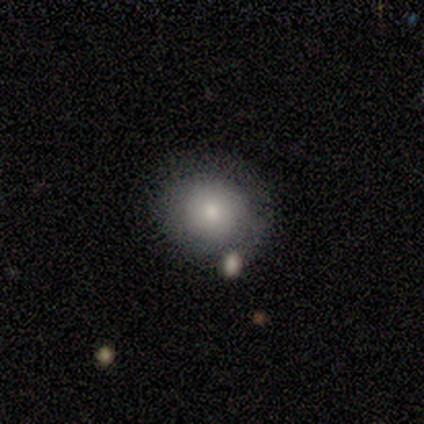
Volunteers were most divided on "merging": none: 75%, minor disturbance: 25%, major disturbance: 0%, merger: 0%. More confident: how rounded — round (100%); smooth or featured — smooth (80%).